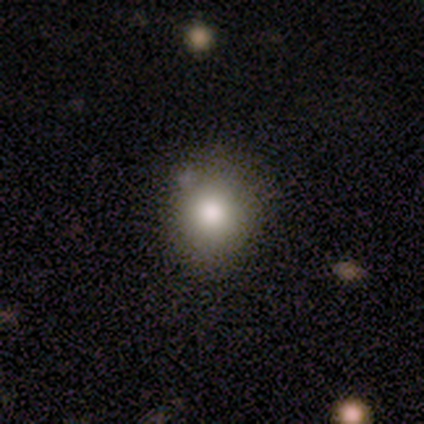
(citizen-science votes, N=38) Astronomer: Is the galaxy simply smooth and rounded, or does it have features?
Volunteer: smooth — 84%.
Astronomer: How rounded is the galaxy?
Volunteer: round — 84%.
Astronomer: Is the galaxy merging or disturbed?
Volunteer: none — 83%.